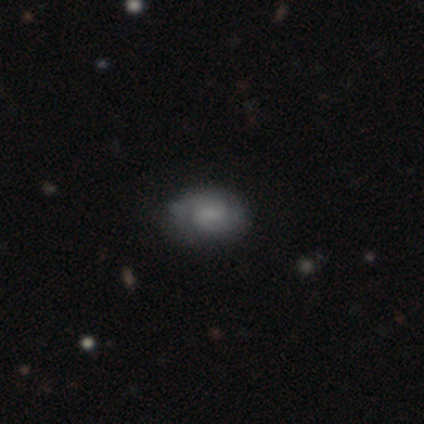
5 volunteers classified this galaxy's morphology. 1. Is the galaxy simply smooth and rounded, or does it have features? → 60% smooth, 40% featured or disk, 0% star or artifact.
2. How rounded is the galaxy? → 100% in between, 0% round, 0% cigar-shaped.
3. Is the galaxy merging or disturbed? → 80% none, 20% minor disturbance, 0% major disturbance, 0% merger.